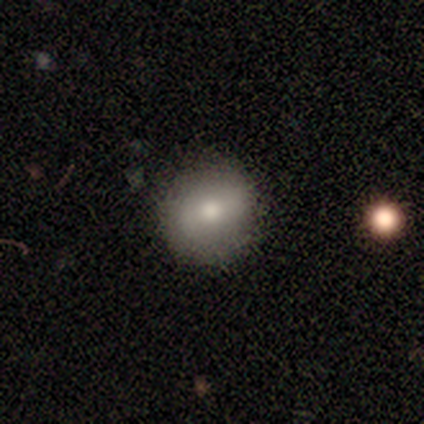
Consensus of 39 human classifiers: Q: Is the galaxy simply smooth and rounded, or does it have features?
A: smooth — 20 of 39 (51%).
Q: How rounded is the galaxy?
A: round — 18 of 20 (90%).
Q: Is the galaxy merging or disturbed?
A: none — 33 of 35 (94%).